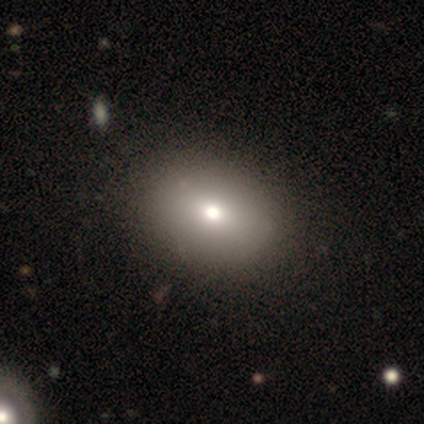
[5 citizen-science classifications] This appears to be a smooth galaxy with no disk features (80%) that is round (50%, tied with in between). Merging: minor disturbance (60%).